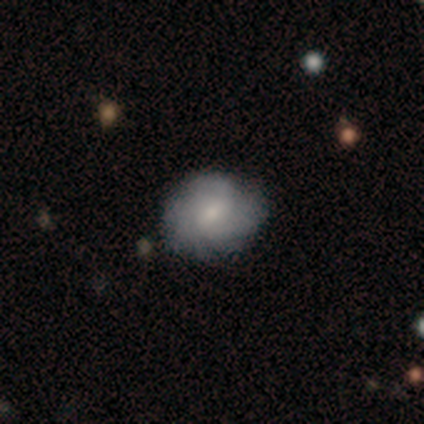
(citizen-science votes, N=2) Overall: featured or disk (100%). Edge-on disk: no (100%). Bar: weak (50%, tied with no). Spiral arms: yes (100%). Spiral arm count: 3 (50%, tied with can't tell). Spiral winding: tight (100%). Bulge size: small (100%). Merging: none (100%).